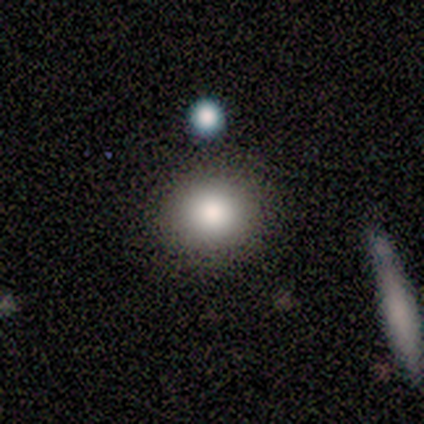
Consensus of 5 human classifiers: smooth 100%, featured or disk 0%, star or artifact 0%. Down the decision tree: how rounded — round (80%); merging — none (100%).